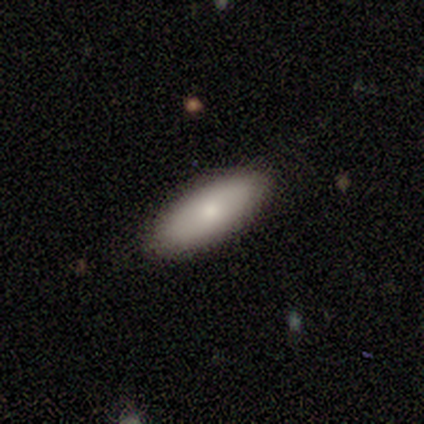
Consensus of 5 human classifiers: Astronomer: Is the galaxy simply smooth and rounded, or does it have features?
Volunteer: smooth — 100%.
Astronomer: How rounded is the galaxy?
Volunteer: in between — 60% (runner-up: cigar-shaped, 40%).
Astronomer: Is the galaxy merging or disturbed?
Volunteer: none — 80%.